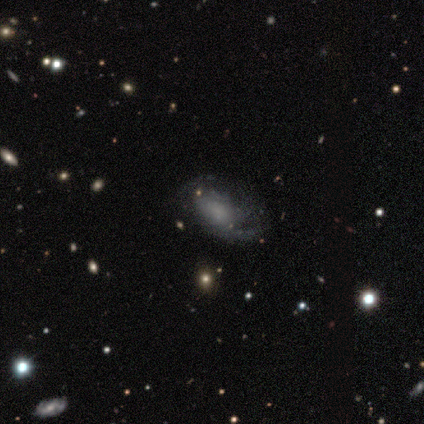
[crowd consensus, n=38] Q: Smooth or featured?
A: featured or disk (63%); runner-up: smooth (24%)
Q: Edge-on disk?
A: no (100%)
Q: Bar?
A: no (88%); runner-up: weak (12%)
Q: Spiral arms?
A: yes (83%); runner-up: no (17%)
Q: Spiral winding?
A: medium (50%); runner-up: loose (30%)
Q: Spiral arm count?
A: can't tell (35%); runner-up: 2 (25%)
Q: Bulge size?
A: none (46%); runner-up: moderate (25%)
Q: Merging?
A: none (61%); runner-up: major disturbance (21%)